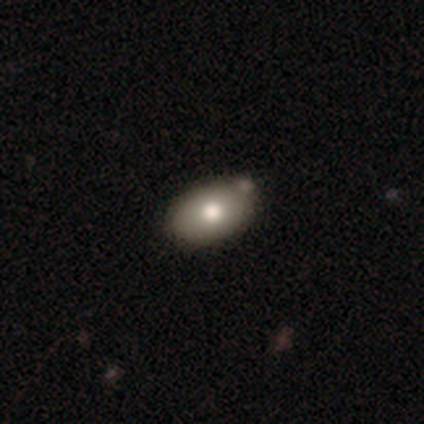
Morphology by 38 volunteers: Volunteers were most divided on "merging": none: 63%, merger: 17%, minor disturbance: 14%, major disturbance: 6%. More confident: how rounded — in between (79%); smooth or featured — smooth (74%).